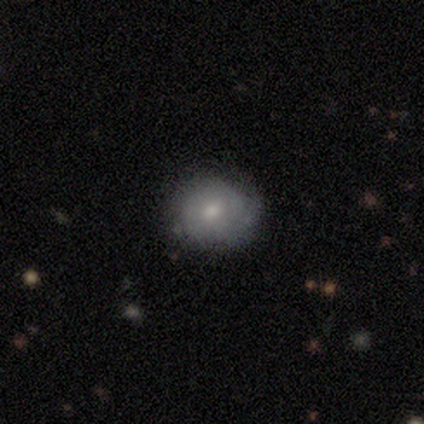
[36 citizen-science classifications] smooth_or_featured: smooth (p=0.56) [alt: featured or disk p=0.39]
how_rounded: round (p=0.90) [alt: in between p=0.10]
merging: none (p=0.68) [alt: minor disturbance p=0.24]